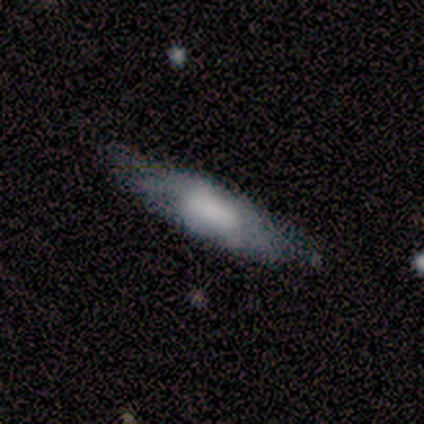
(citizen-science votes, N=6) Smooth or featured?
  - smooth: 67% *
  - featured or disk: 33%
  - star or artifact: 0%
How rounded?
  - cigar-shaped: 100% *
  - round: 0%
  - in between: 0%
Merging?
  - none: 100% *
  - minor disturbance: 0%
  - major disturbance: 0%
  - merger: 0%